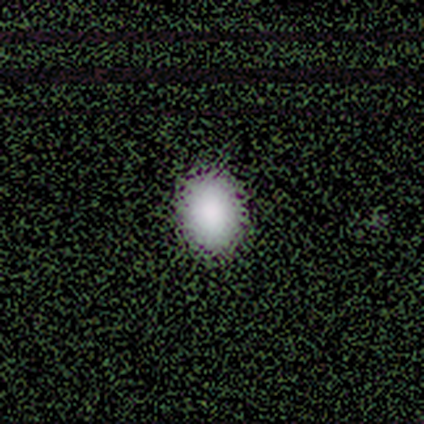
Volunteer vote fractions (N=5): Volunteers were most divided on "how rounded": in between: 75%, round: 25%, cigar-shaped: 0%. More confident: smooth or featured — smooth (80%); merging — none (80%).